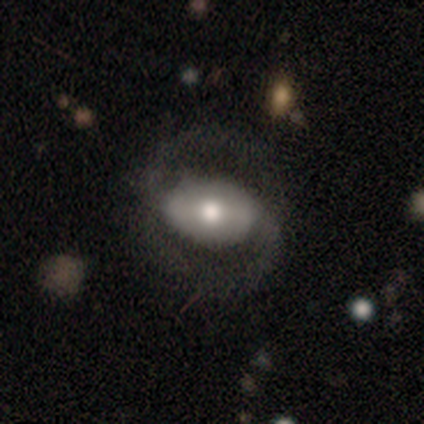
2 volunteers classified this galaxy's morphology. Overall: smooth (100%). How rounded: in between (100%). Merging: none (50%, tied with major disturbance).